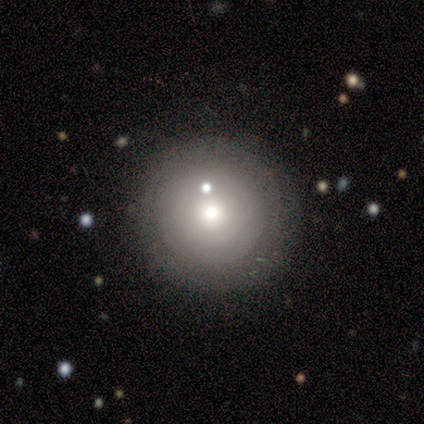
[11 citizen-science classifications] smooth-or-featured: smooth: 82% | featured or disk: 9% | star or artifact: 9%
  how-rounded: round: 100% | in between: 0% | cigar-shaped: 0%
  merging: none: 70% | minor disturbance: 30% | major disturbance: 0% | merger: 0%